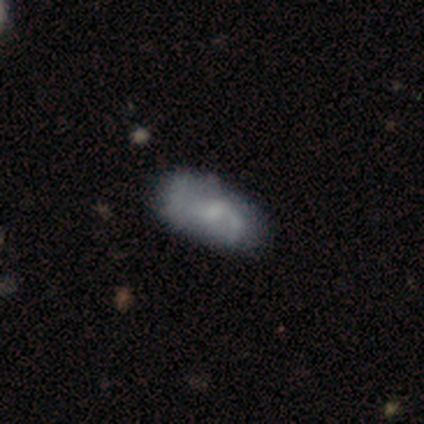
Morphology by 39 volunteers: This is possibly a featured or disk galaxy (59%). It is clearly not viewed edge-on (96%). Bar: likely no (64%). Spiral arm pattern: likely yes (77%). Spiral arm count: possibly 2 (59%). Spiral winding: likely loose (65%). Central bulge: possibly none (50%). Merging: likely none (60%).